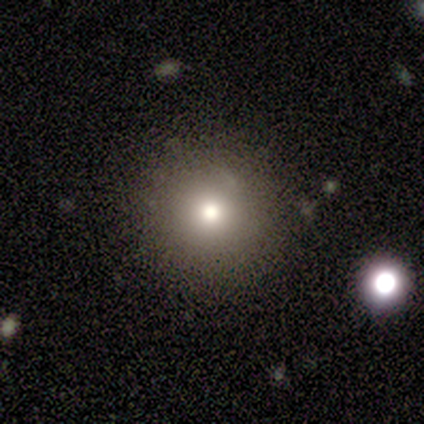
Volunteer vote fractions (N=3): Smooth or featured? 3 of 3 (100%) said smooth. How rounded? 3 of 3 (100%) said round. Merging? 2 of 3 (67%) said none.